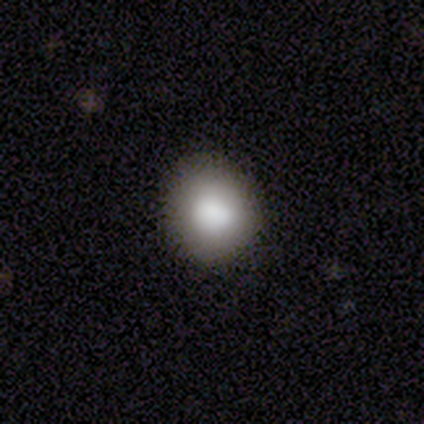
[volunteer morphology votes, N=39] smooth-or-featured: smooth: 82% | featured or disk: 13% | star or artifact: 5%
  how-rounded: round: 94% | in between: 6% | cigar-shaped: 0%
  merging: none: 68% | minor disturbance: 24% | merger: 8% | major disturbance: 0%